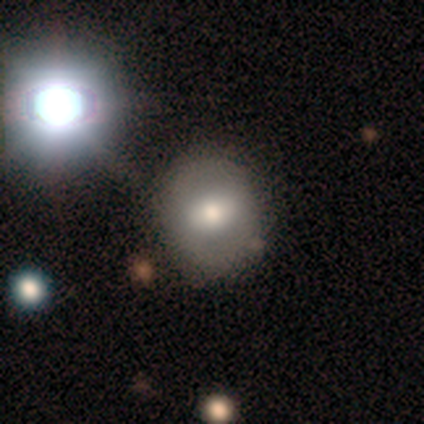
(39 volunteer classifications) Smooth or featured: smooth — 67% (featured or disk — 31%)
How rounded: round — 77% (in between — 23%)
Merging: none — 87% (minor disturbance — 8%)